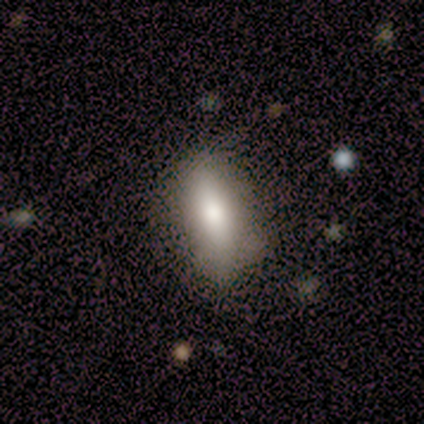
Smooth or featured? smooth (80%)
How rounded? in between (100%)
Merging? none (75%)